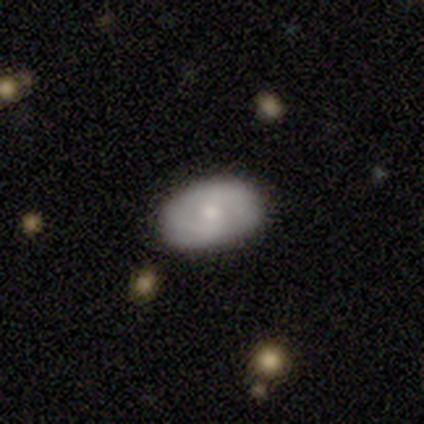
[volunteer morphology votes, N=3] featured or disk 67%, smooth 33%, star or artifact 0%. Down the decision tree: edge-on disk — no (100%); bar — weak (50%, tied with no); spiral arms — yes (50%, tied with no); spiral arm count — can't tell (100%); spiral winding — tight (100%); bulge size — moderate (50%, tied with small); merging — none (100%).